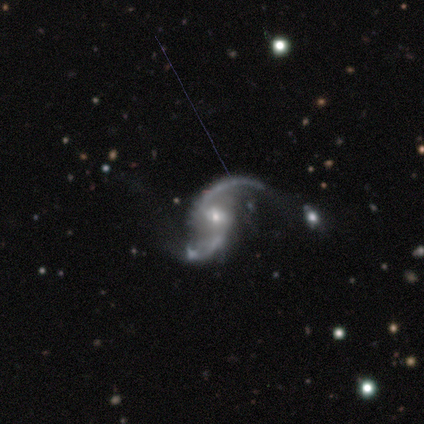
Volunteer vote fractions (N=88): Smooth or featured? 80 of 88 (91%) said featured or disk. Edge-on disk? 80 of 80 (100%) said no. Bar? 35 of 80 (44%) said no. Spiral arms? 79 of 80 (99%) said yes. Spiral winding? 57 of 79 (72%) said loose. Spiral arm count? 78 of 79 (99%) said 2. Bulge size? 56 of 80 (70%) said small. Merging? 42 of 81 (52%) said none.